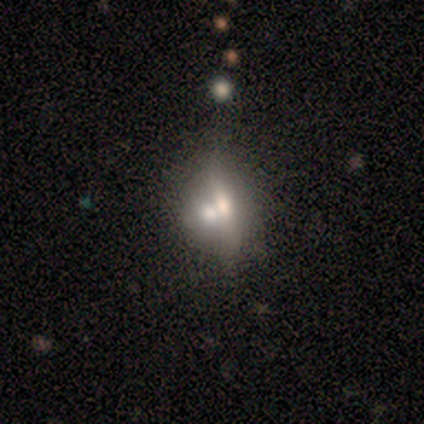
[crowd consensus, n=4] Morphology: type=featured or disk (75%); edge-on=no (67%); bar=strong (50%, tied with no); spiral arms=no (100%); bulge=dominant (50%, tied with moderate); merging=merger (50%).